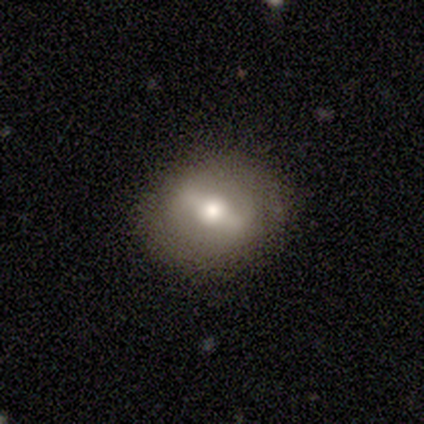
smooth-or-featured: featured or disk: 60% | smooth: 40% | star or artifact: 0%
  disk-edge-on: no: 100% | yes: 0%
    bar: strong: 67% | weak: 33% | no: 0%
    has-spiral-arms: no: 67% | yes: 33%
    bulge-size: moderate: 100% | dominant: 0% | large: 0% | small: 0% | none: 0%
  merging: none: 60% | minor disturbance: 40% | major disturbance: 0% | merger: 0%